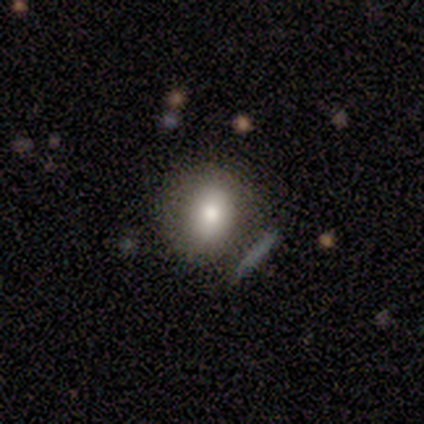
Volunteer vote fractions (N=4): Smooth or featured? 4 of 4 (100%) said smooth. How rounded? 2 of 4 (50%, tied with in between) said round. Merging? 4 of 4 (100%) said none.